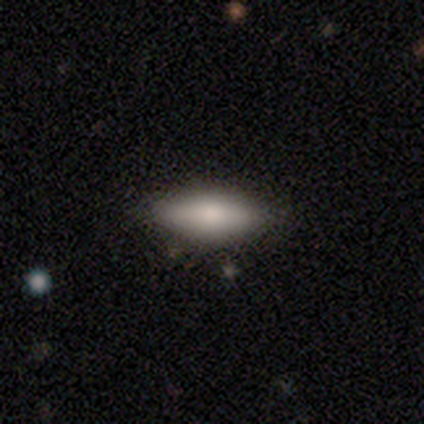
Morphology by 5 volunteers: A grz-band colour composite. It shows a smooth galaxy with no disk features (80%) that is in between round and cigar-shaped (100%). Merging: none (100%).